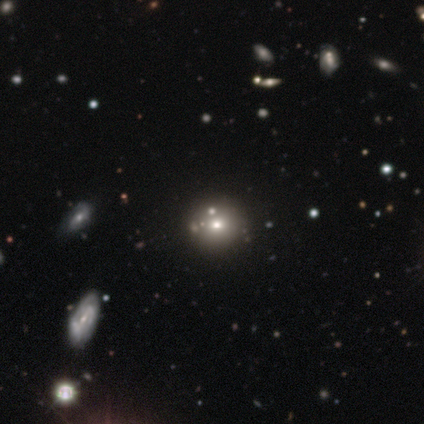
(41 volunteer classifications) This appears to be a smooth galaxy with no disk features (51%) that is round (81%). Merging: none (72%).